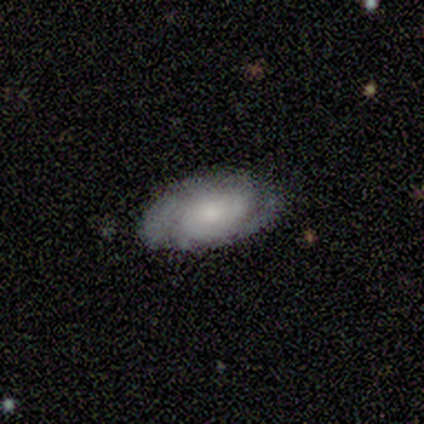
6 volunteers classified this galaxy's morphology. Smooth or featured: featured or disk — 83% (smooth — 17%)
Edge-on disk: no — 100%
Bar: no — 80% (weak — 20%)
Spiral arms: yes — 100%
Spiral winding: tight — 40% (tied with medium — 40%)
Spiral arm count: 2 — 60% (3 — 20%)
Bulge size: moderate — 60% (small — 40%)
Merging: none — 67% (minor disturbance — 17%)